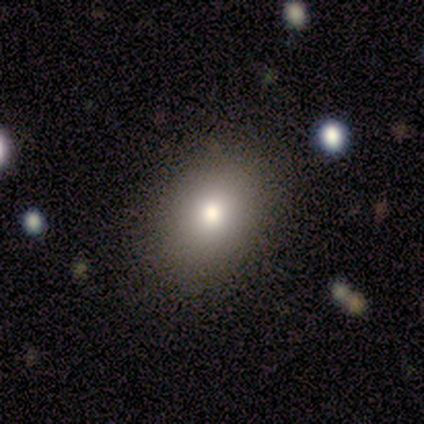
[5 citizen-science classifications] A smooth galaxy with no disk features (100%) that is in between round and cigar-shaped (100%).

Vote fractions:
- Smooth or featured? smooth: 100% / featured or disk: 0% / star or artifact: 0%
- How rounded? in between: 100% / round: 0% / cigar-shaped: 0%
- Merging? none: 80% / minor disturbance: 20% / major disturbance: 0% / merger: 0%